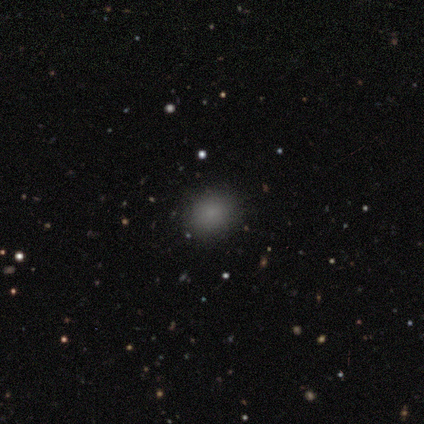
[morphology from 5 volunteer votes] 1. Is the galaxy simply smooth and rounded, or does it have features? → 80% smooth, 20% star or artifact, 0% featured or disk.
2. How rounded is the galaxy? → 75% round, 25% in between, 0% cigar-shaped.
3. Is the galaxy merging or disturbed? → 100% none, 0% minor disturbance, 0% major disturbance, 0% merger.